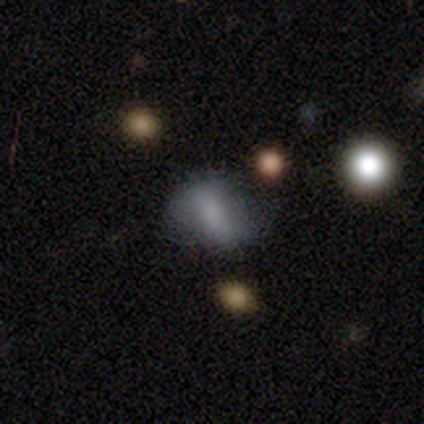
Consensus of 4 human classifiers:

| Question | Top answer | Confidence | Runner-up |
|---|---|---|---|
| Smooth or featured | smooth | 50% | tied: featured or disk (50%) |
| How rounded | in between | 100% | — |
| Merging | none | 50% | tied: major disturbance (50%) |